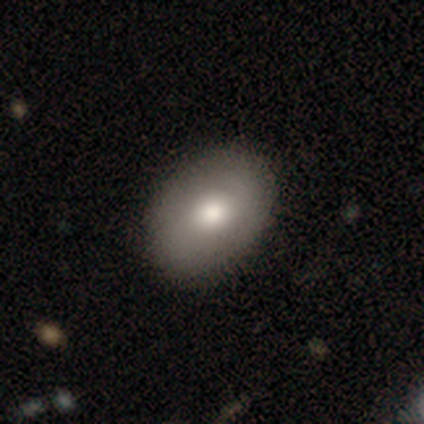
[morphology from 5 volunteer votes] This is likely a smooth galaxy (60%). How rounded: likely in between (67%). Merging: likely none (75%).